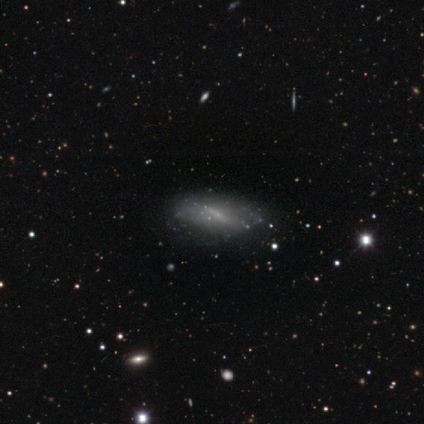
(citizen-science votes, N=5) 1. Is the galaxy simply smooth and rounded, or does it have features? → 40% smooth (tied), 40% featured or disk (tied), 20% star or artifact.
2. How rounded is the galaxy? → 100% in between, 0% round, 0% cigar-shaped.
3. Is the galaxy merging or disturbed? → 50% none (tied), 50% minor disturbance (tied), 0% major disturbance, 0% merger.